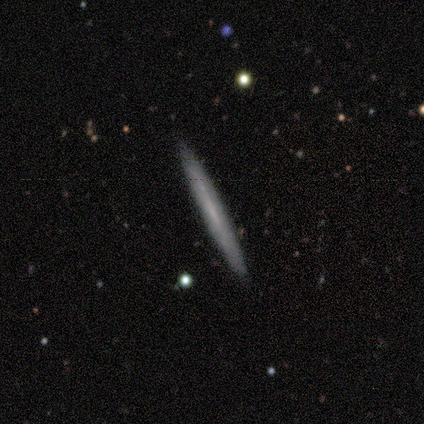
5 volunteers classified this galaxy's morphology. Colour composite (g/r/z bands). It shows a smooth galaxy with no disk features (80%) that is cigar-shaped (100%). Merging: none (100%).